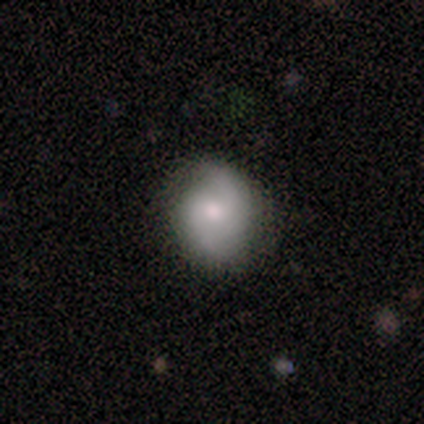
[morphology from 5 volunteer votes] Overall: featured or disk (100%). Edge-on disk: no (100%). Bar: no (60%; strong 20%). Spiral arms: yes (100%). Spiral arm count: 2 (100%). Spiral winding: medium (60%; loose 40%). Bulge size: moderate (80%). Merging: none (80%).